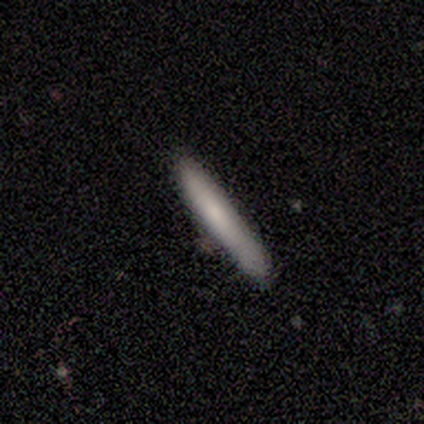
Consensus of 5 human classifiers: Smooth or featured? 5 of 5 (100%) said smooth. How rounded? 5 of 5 (100%) said cigar-shaped. Merging? 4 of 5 (80%) said none.